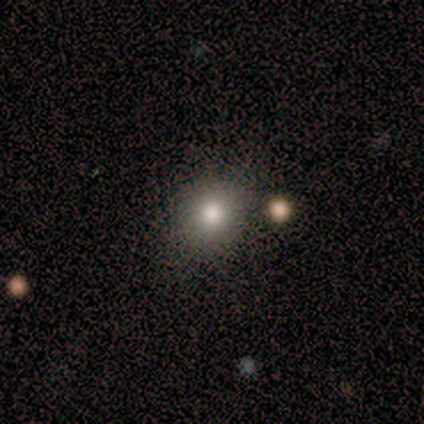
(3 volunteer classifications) smooth_or_featured: smooth (p=0.67) [alt: star or artifact p=0.33]
how_rounded: round (p=1.00)
merging: none (p=1.00)